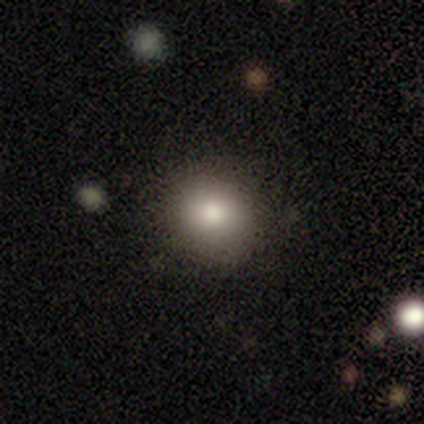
Smooth or featured? 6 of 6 (100%) said smooth. How rounded? 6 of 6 (100%) said round. Merging? 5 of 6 (83%) said none.